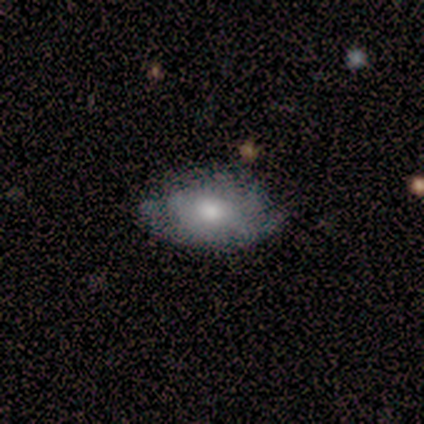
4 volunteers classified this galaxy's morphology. This is likely a smooth galaxy (75%). How rounded: likely in between (67%). Merging: clearly none (100%).